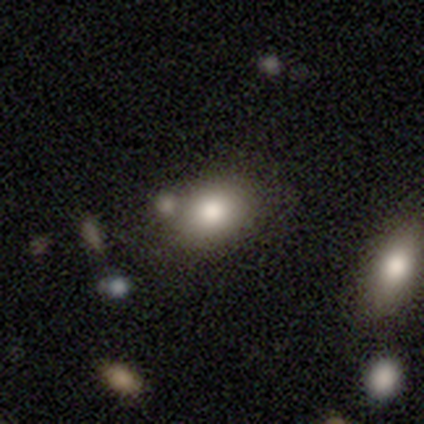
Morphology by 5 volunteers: Smooth or featured? 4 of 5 (80%) said smooth. How rounded? 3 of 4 (75%) said in between. Merging? 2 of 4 (50%, tied with merger) said none.